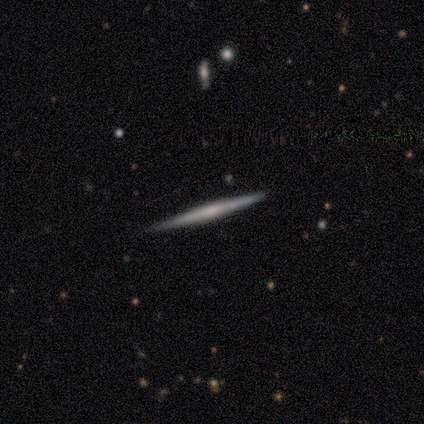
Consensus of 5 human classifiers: smooth_or_featured: featured or disk (p=0.60) [alt: smooth p=0.40]
disk_edge_on: yes (p=1.00)
edge_on_bulge: boxy (p=0.33) [tied with: none p=0.33, rounded p=0.33]
merging: none (p=1.00)